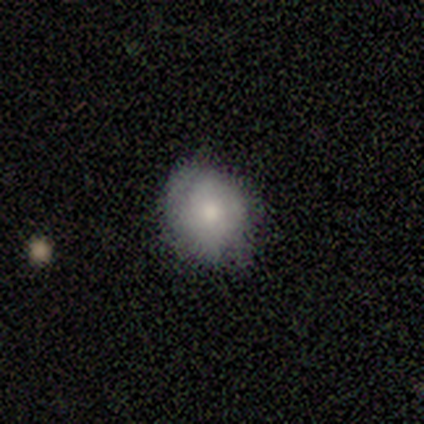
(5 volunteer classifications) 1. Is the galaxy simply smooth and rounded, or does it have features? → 80% smooth, 20% featured or disk, 0% star or artifact.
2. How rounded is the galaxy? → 75% round, 25% in between, 0% cigar-shaped.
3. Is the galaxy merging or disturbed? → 100% none, 0% minor disturbance, 0% major disturbance, 0% merger.